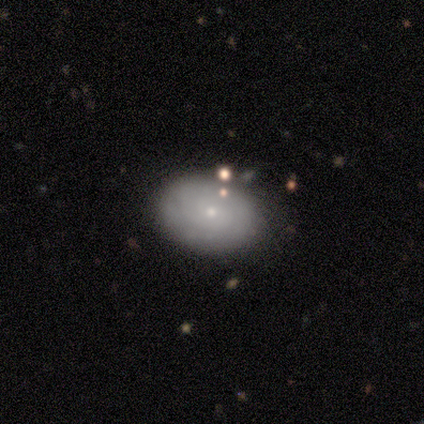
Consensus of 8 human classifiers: Overall: featured or disk (62%; smooth 25%). Edge-on disk: no (100%). Bar: no (100%). Spiral arms: no (80%). Bulge size: small (100%). Merging: none (100%).